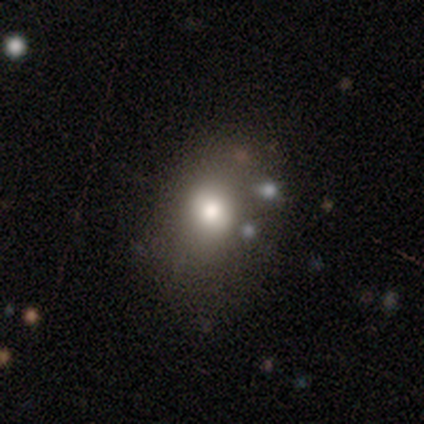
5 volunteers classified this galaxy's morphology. smooth 40% (tied), star or artifact 40% (tied), featured or disk 20%. Down the decision tree: how rounded — round (50%, tied with in between); merging — minor disturbance (67%).